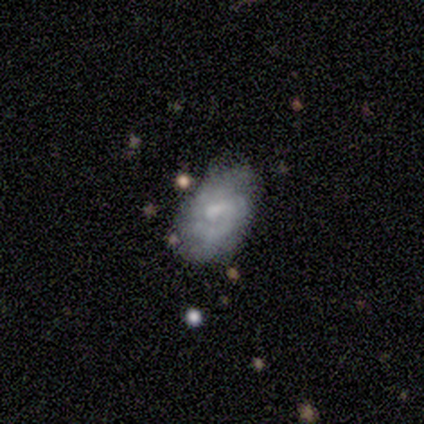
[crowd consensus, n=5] Morphology: type=smooth (60%); roundness=in between (100%); merging=minor disturbance (60%).